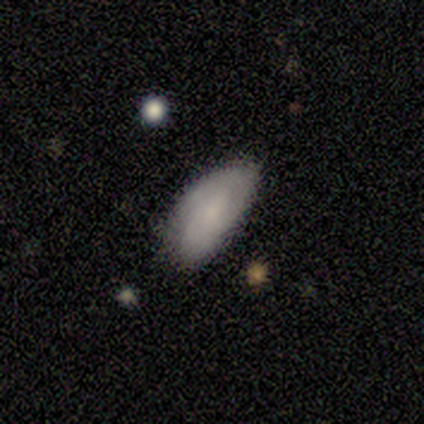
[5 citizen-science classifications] This appears to be a featured or disk galaxy (60%) with no bar (67%), 2 (67%) tight (100%) spiral arms (100%) and a moderate central bulge (33%, tied with small and none). Merging: none (60%).